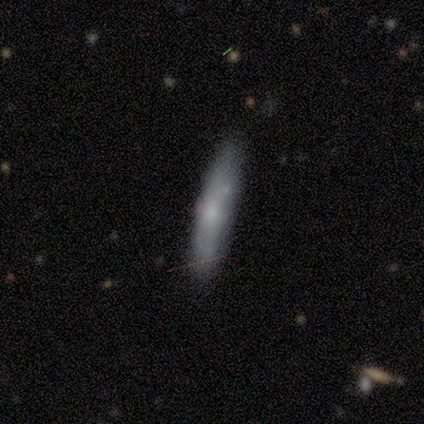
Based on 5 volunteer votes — Q: Smooth or featured?
A: smooth (80%); runner-up: featured or disk (20%)
Q: How rounded?
A: in between (75%); runner-up: cigar-shaped (25%)
Q: Merging?
A: none (80%); runner-up: minor disturbance (20%)